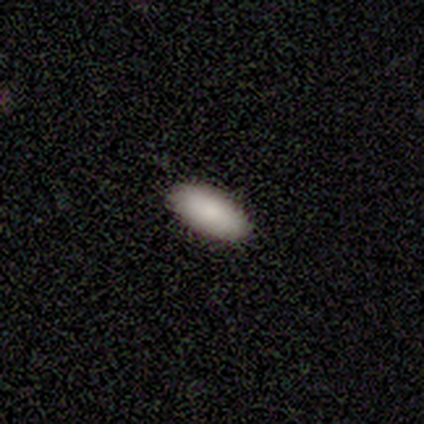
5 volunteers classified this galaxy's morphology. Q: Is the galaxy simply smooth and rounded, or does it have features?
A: smooth — 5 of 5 (100%).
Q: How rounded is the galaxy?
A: in between — 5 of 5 (100%).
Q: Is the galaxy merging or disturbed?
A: none — 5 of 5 (100%).